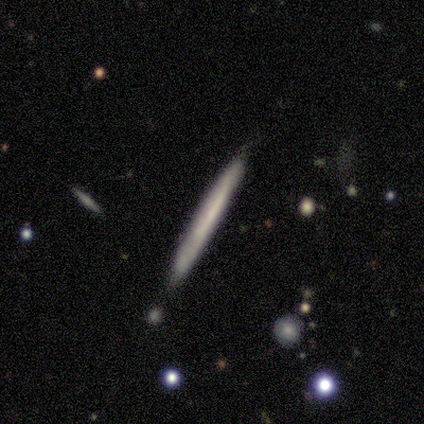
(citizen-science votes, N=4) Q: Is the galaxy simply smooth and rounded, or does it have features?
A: smooth — 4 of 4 (100%).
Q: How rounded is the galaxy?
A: cigar-shaped — 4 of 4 (100%).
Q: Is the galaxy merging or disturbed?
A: none — 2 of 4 (50%, tied with minor disturbance).